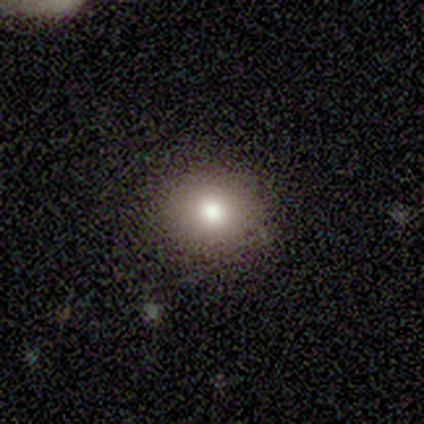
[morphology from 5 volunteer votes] This appears to be a smooth galaxy with no disk features (80%) that is in between round and cigar-shaped (75%). Merging: none (100%).